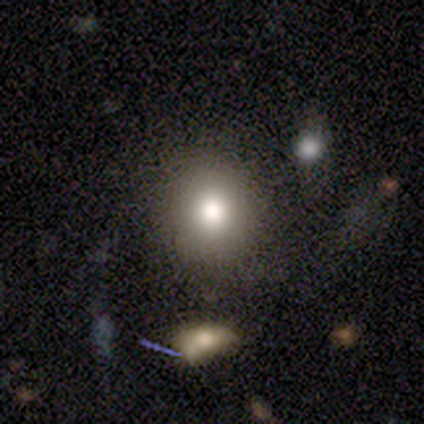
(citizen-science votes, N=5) Smooth or featured: smooth — 100%
How rounded: round — 100%
Merging: none — 80% (minor disturbance — 20%)